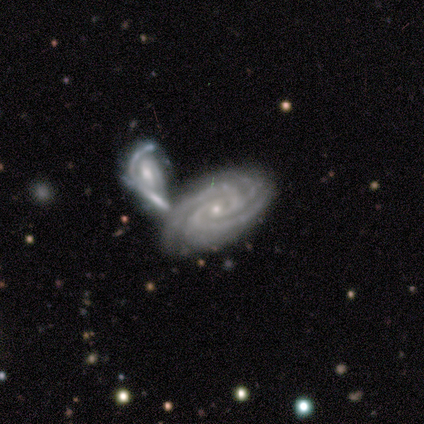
Smooth or featured: featured or disk — 100%
Edge-on disk: no — 100%
Bar: no — 67% (strong — 25%)
Spiral arms: yes — 100%
Spiral winding: tight — 83% (medium — 8%)
Spiral arm count: 3 — 50% (2 — 33%)
Bulge size: small — 83% (moderate — 17%)
Merging: merger — 75% (none — 17%)